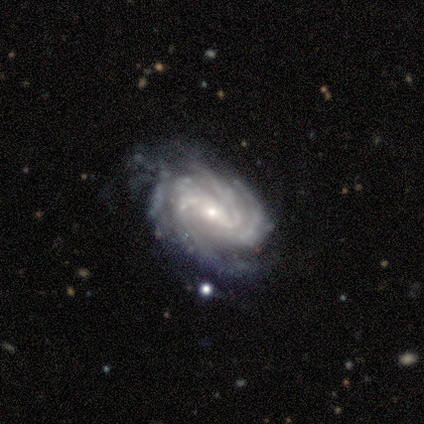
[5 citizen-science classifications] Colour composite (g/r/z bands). It shows a featured or disk galaxy (100%) with no bar (60%), 3 (40%, tied with 4) tight (60%) spiral arms (100%) and a small central bulge (60%). Merging: none (60%).